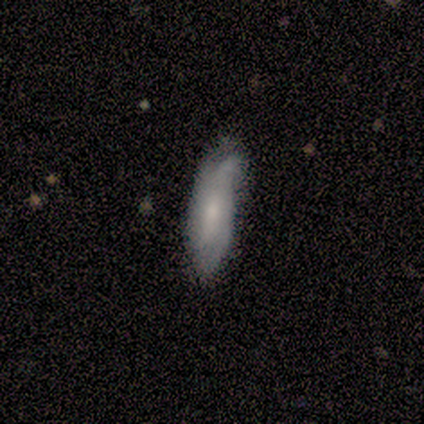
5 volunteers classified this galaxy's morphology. Q: Smooth or featured?
A: featured or disk (100%)
Q: Edge-on disk?
A: no (60%); runner-up: yes (40%)
Q: Bar?
A: no (67%); runner-up: weak (33%)
Q: Spiral arms?
A: yes (67%); runner-up: no (33%)
Q: Spiral winding?
A: tight (50%); tied with: medium (50%)
Q: Spiral arm count?
A: 2 (50%); tied with: 3 (50%)
Q: Bulge size?
A: small (67%); runner-up: moderate (33%)
Q: Merging?
A: none (40%); tied with: minor disturbance (40%)